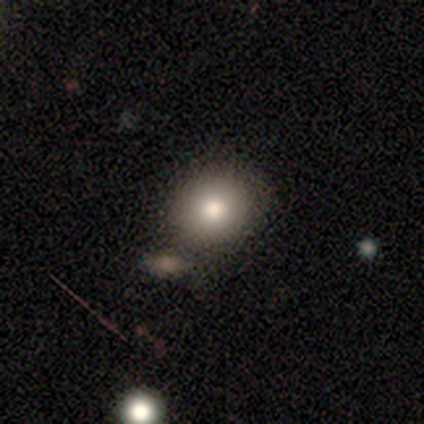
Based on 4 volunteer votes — Smooth or featured? 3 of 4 (75%) said smooth. How rounded? 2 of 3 (67%) said round. Merging? 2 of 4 (50%) said none.